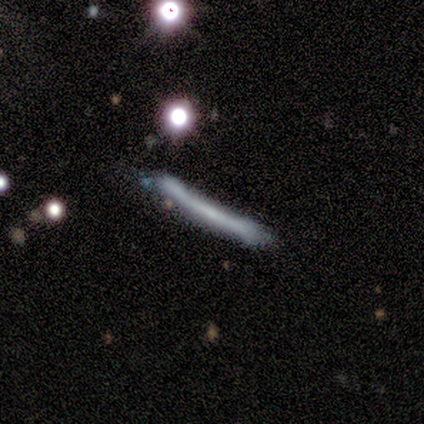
Q: Smooth or featured?
A: featured or disk (100%)
Q: Edge-on disk?
A: yes (100%)
Q: Edge-on bulge?
A: none (100%)
Q: Merging?
A: none (60%); runner-up: minor disturbance (40%)